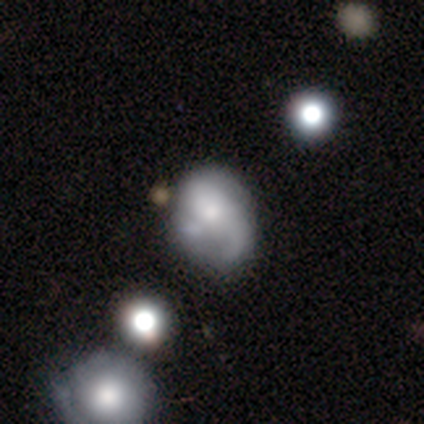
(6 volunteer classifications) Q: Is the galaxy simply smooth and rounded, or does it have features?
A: featured or disk — 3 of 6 (50%).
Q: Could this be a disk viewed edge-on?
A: no — 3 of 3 (100%).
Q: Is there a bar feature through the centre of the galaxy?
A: no — 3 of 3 (100%).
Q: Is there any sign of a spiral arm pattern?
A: no — 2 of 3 (67%).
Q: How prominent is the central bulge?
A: moderate — 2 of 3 (67%).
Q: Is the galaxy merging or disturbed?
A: major disturbance — 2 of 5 (40%, tied with merger).